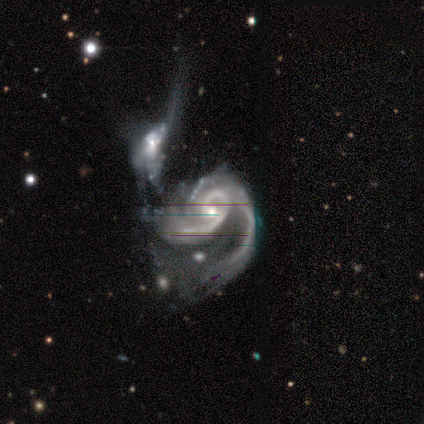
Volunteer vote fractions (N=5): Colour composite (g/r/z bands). It shows a featured or disk galaxy (100%) with a weak bar (60%), 2 (80%) tight (60%) spiral arms (100%) and a small central bulge (80%). Merging: merger (80%).